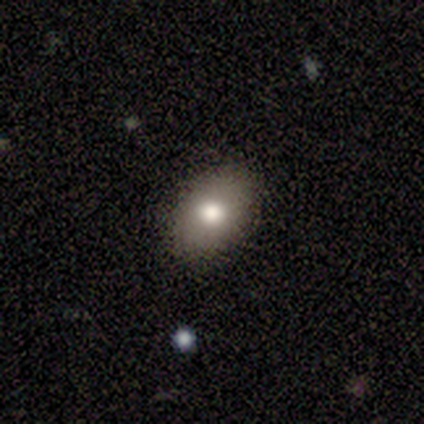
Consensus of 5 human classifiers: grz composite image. It shows a smooth galaxy with no disk features (80%) that is round (50%, tied with in between). Merging: none (100%).